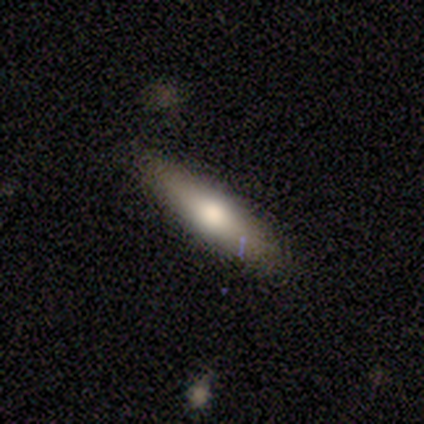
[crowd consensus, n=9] smooth_or_featured: smooth (p=0.56) [alt: featured or disk p=0.44]
how_rounded: cigar-shaped (p=0.80) [alt: in between p=0.20]
merging: none (p=0.78) [alt: minor disturbance p=0.22]